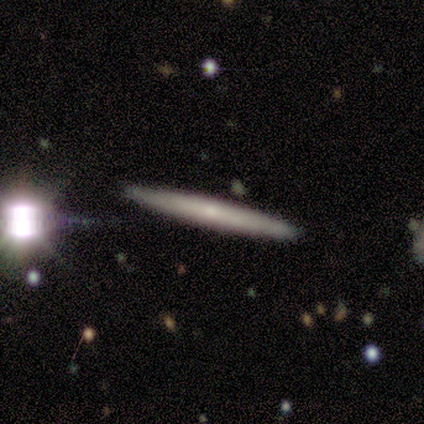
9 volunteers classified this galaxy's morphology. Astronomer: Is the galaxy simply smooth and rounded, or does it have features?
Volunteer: featured or disk — 67%.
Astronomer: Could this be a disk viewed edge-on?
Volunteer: yes — 100%.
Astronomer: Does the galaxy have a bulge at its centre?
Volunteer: none — 50%, tied with rounded at 50%.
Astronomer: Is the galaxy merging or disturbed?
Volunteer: none — 71%.